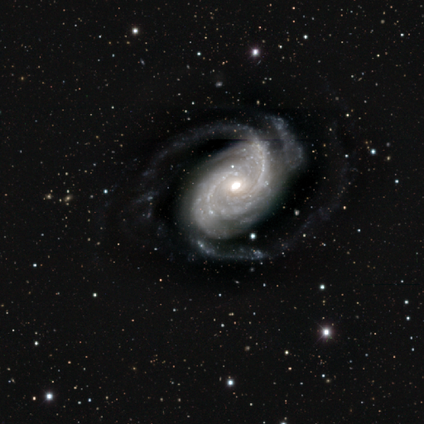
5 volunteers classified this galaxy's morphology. Smooth or featured? 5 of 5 (100%) said featured or disk. Edge-on disk? 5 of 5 (100%) said no. Bar? 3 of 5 (60%) said no. Spiral arms? 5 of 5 (100%) said yes. Spiral winding? 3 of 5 (60%) said medium. Spiral arm count? 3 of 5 (60%) said 2. Bulge size? 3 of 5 (60%) said moderate. Merging? 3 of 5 (60%) said none.